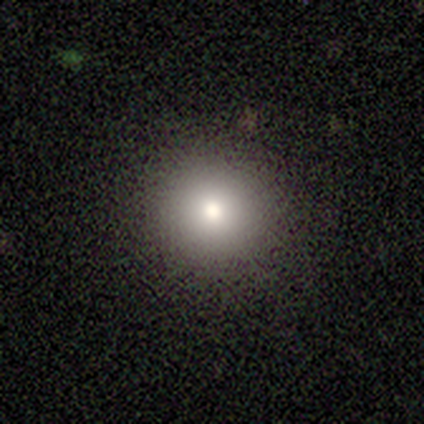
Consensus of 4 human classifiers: This is likely a smooth galaxy (75%). How rounded: clearly round (100%). Merging: clearly none (100%).